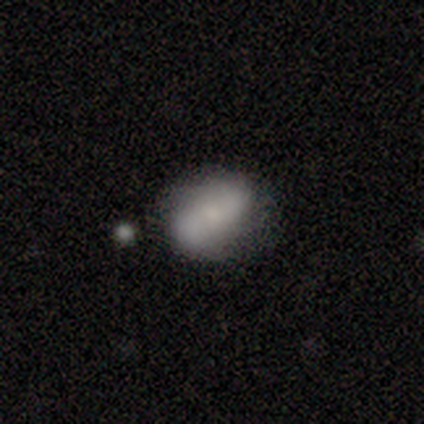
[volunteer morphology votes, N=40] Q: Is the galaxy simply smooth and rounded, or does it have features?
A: smooth — 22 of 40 (55%).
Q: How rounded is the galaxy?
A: in between — 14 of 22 (64%).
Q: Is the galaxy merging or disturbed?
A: none — 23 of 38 (61%).